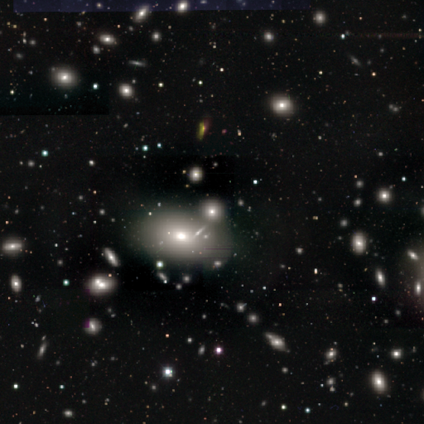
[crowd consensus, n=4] Volunteers were most divided on "how rounded" (2-way tie): round: 50%, in between: 50%, cigar-shaped: 0%. More confident: merging — none (100%); smooth or featured — smooth (50%).